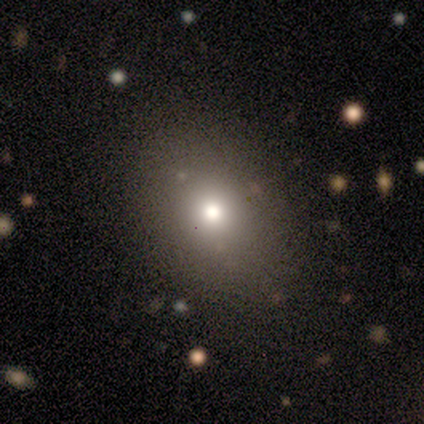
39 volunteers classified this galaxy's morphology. Smooth or featured?
  - smooth: 59% *
  - featured or disk: 26%
  - star or artifact: 15%
How rounded?
  - in between: 57% *
  - round: 43%
  - cigar-shaped: 0%
Merging?
  - none: 52% *
  - major disturbance: 6%
  - merger: 6%
  - minor disturbance: 0%